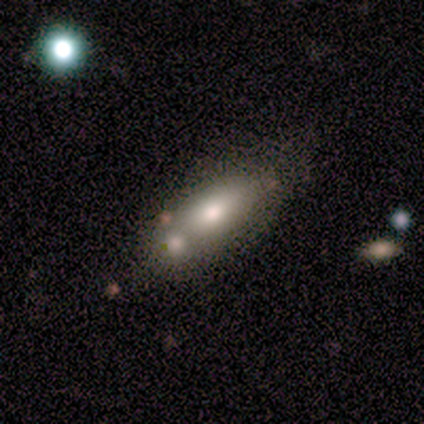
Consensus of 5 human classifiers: Overall: smooth (80%). How rounded: in between (50%, tied with cigar-shaped). Merging: merger (60%; none 40%).